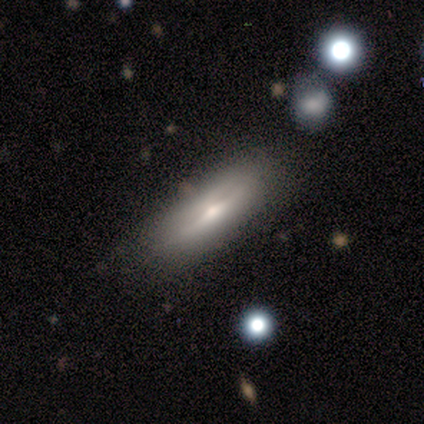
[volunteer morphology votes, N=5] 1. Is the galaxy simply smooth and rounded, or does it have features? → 60% smooth, 40% featured or disk, 0% star or artifact.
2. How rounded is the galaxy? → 67% cigar-shaped, 33% in between, 0% round.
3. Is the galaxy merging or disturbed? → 80% none, 20% minor disturbance, 0% major disturbance, 0% merger.